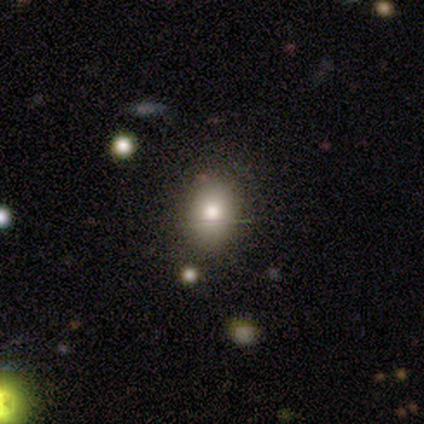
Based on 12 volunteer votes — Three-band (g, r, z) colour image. It shows a smooth galaxy with no disk features (92%) that is in between round and cigar-shaped (73%). Merging: none (83%).